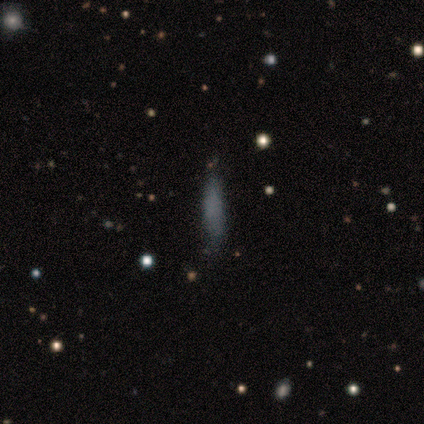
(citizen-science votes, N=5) smooth-or-featured: smooth: 80% | star or artifact: 20% | featured or disk: 0%
  how-rounded: cigar-shaped: 75% | in between: 25% | round: 0%
  merging: none: 100% | minor disturbance: 0% | major disturbance: 0% | merger: 0%